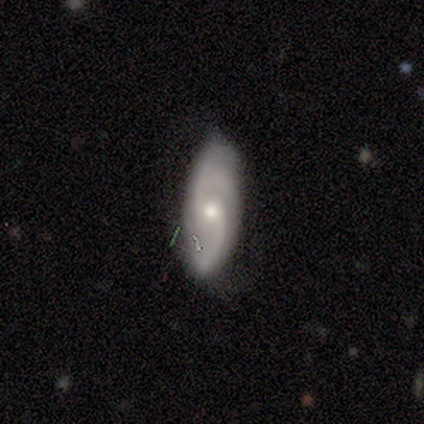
A featured or disk galaxy (74%) with a weak bar (52%), 2 (67%) medium (48%) spiral arms (93%) and a moderate central bulge (59%).

Vote fractions:
- Smooth or featured? featured or disk: 74% / smooth: 15% / star or artifact: 10%
- Edge-on disk? no: 100% / yes: 0%
- Bar? weak: 52% / no: 45% / strong: 3%
- Spiral arms? yes: 93% / no: 7%
- Spiral winding? medium: 48% / tight: 26% / loose: 26%
- Spiral arm count? 2: 67% / can't tell: 22% / 3: 7% / 4: 4% / 1: 0% / more than 4: 0%
- Bulge size? moderate: 59% / small: 38% / none: 3% / dominant: 0% / large: 0%
- Merging? none: 89% / minor disturbance: 9% / major disturbance: 3% / merger: 0%